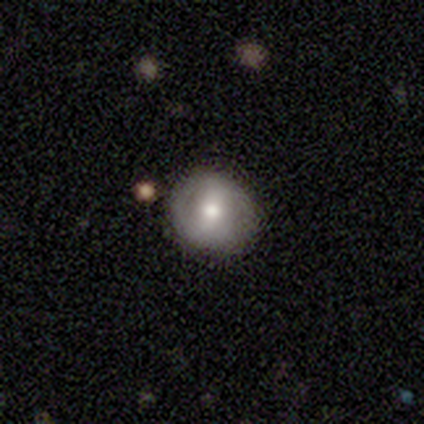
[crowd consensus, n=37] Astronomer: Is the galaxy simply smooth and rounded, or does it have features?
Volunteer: featured or disk — 46% (runner-up: smooth, 43%).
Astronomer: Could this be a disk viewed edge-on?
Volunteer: no — 100%.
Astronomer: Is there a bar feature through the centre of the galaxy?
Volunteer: weak — 53% (runner-up: strong, 29%).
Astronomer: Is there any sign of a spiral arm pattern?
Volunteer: no — 76%.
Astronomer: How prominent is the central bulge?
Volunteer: moderate — 59%.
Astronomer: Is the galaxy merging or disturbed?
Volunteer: none — 79%.